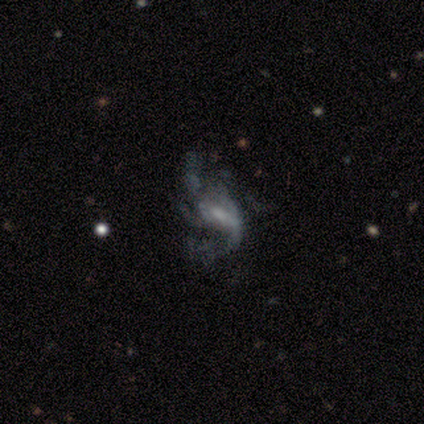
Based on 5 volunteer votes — This is clearly a featured or disk galaxy (100%). It is clearly not viewed edge-on (100%). Bar: likely weak (60%). Spiral arm pattern: clearly yes (80%). Spiral arm count: possibly can't tell (50%). Spiral winding: possibly medium (50%, tied with loose). Central bulge: marginally small (40%, tied with none). Merging: marginally none (40%, tied with major disturbance).